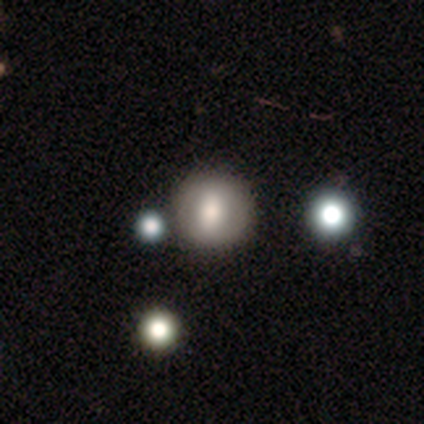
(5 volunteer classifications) Overall: smooth (60%; featured or disk 40%). How rounded: round (67%; in between 33%). Merging: none (80%).